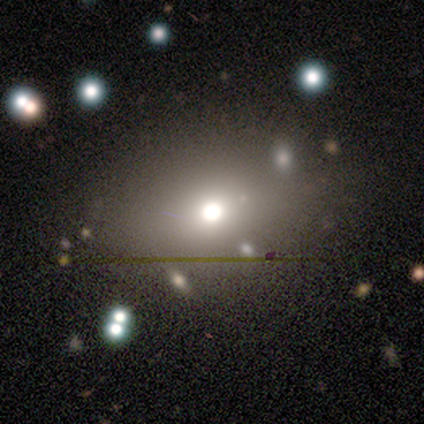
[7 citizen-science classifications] Smooth or featured? smooth (43%, tied with star or artifact)
How rounded? round (67%)
Merging? none (100%)